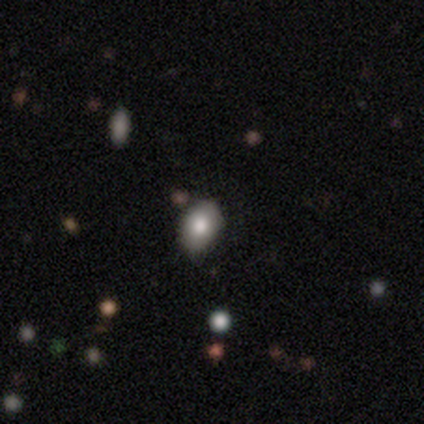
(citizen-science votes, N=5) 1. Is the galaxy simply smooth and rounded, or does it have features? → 80% smooth, 20% star or artifact, 0% featured or disk.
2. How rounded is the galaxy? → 75% in between, 25% round, 0% cigar-shaped.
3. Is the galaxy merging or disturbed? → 75% none, 25% merger, 0% minor disturbance, 0% major disturbance.